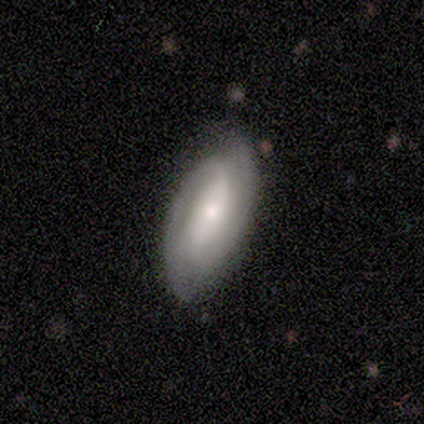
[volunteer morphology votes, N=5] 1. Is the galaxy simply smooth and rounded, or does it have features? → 80% featured or disk, 20% smooth, 0% star or artifact.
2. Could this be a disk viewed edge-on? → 100% no, 0% yes.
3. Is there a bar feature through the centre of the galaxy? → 75% strong, 25% no, 0% weak.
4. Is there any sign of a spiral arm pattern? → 100% yes, 0% no.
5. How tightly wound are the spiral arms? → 75% medium, 25% tight, 0% loose.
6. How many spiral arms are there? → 75% 2, 25% can't tell, 0% 1, 0% 3, 0% 4, 0% more than 4.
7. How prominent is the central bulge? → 75% moderate, 25% small, 0% dominant, 0% large, 0% none.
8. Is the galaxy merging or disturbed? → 80% none, 20% minor disturbance, 0% major disturbance, 0% merger.